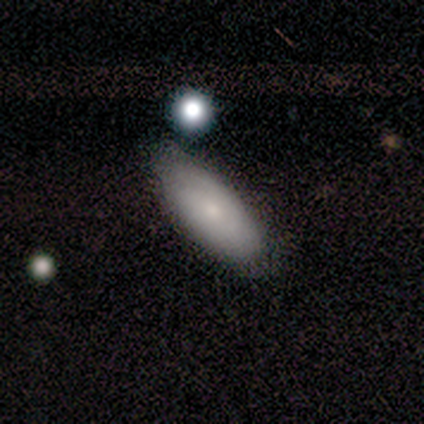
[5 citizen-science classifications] This is likely a smooth galaxy (60%). How rounded: clearly in between (100%). Merging: likely none (60%).